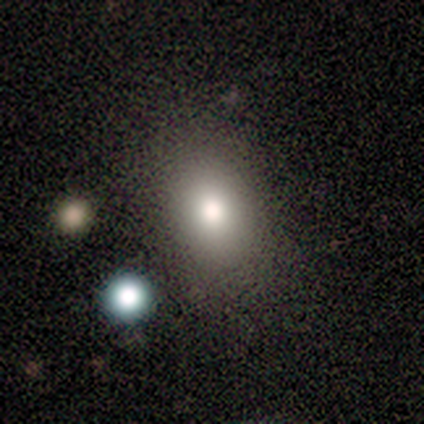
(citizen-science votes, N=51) smooth_or_featured: smooth (p=0.90) [alt: featured or disk p=0.08]
how_rounded: in between (p=0.85) [alt: round p=0.15]
merging: none (p=0.82) [alt: minor disturbance p=0.14]